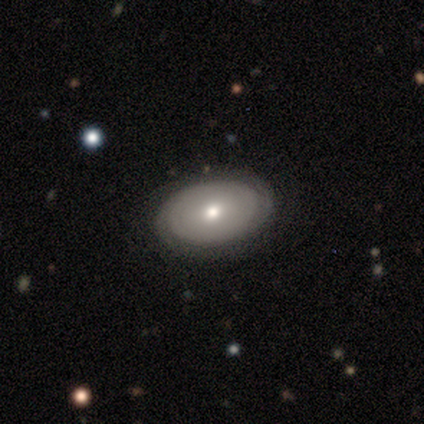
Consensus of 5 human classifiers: smooth-or-featured: smooth: 60% | featured or disk: 40% | star or artifact: 0%
  how-rounded: in between: 100% | round: 0% | cigar-shaped: 0%
  merging: none: 60% | minor disturbance: 40% | major disturbance: 0% | merger: 0%